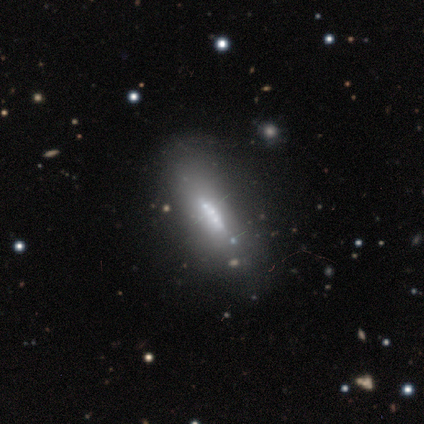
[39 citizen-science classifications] Q: Smooth or featured?
A: featured or disk (64%); runner-up: smooth (28%)
Q: Edge-on disk?
A: yes (52%); runner-up: no (48%)
Q: Edge-on bulge?
A: none (54%); runner-up: boxy (23%)
Q: Merging?
A: none (72%); runner-up: major disturbance (11%)